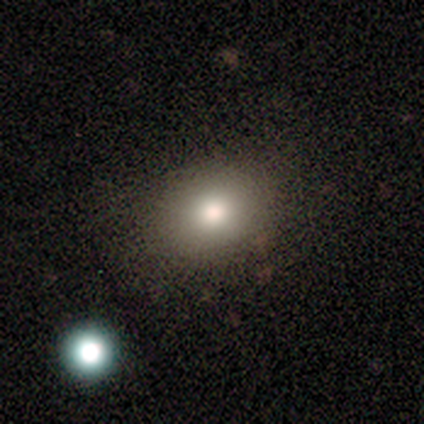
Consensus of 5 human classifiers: Smooth or featured? smooth (100%)
How rounded? round (60%)
Merging? none (80%)